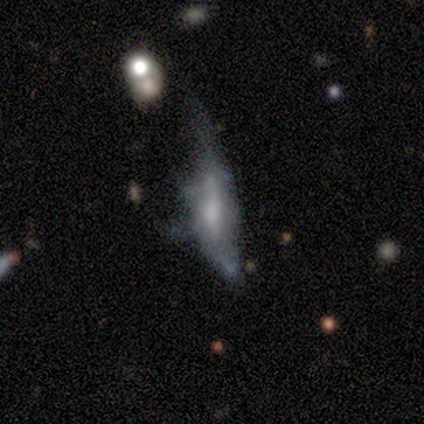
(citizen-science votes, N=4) Smooth or featured? 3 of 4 (75%) said featured or disk. Edge-on disk? 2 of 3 (67%) said no. Bar? 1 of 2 (50%, tied with no) said strong. Spiral arms? 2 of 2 (100%) said no. Bulge size? 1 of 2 (50%, tied with moderate) said dominant. Merging? 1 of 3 (33%, tied with major disturbance and merger) said minor disturbance.